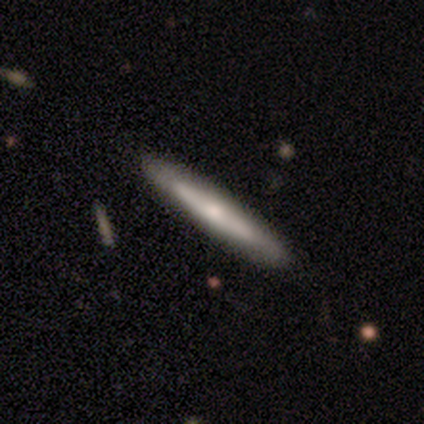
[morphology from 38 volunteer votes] Smooth or featured? 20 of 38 (53%) said featured or disk. Edge-on disk? 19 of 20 (95%) said yes. Edge-on bulge? 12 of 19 (63%) said rounded. Merging? 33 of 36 (92%) said none.